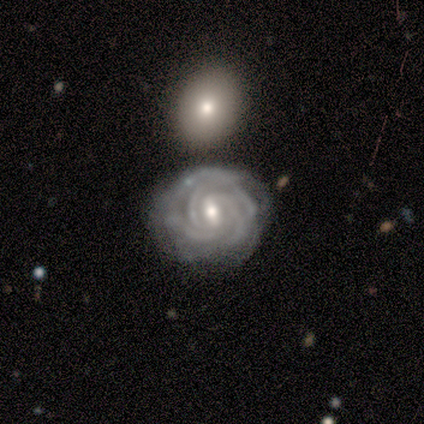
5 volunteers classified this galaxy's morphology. Smooth or featured? 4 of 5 (80%) said featured or disk. Edge-on disk? 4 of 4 (100%) said no. Bar? 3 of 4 (75%) said weak. Spiral arms? 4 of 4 (100%) said yes. Spiral winding? 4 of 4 (100%) said tight. Spiral arm count? 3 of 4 (75%) said 3. Bulge size? 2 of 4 (50%, tied with small) said moderate. Merging? 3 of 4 (75%) said none.